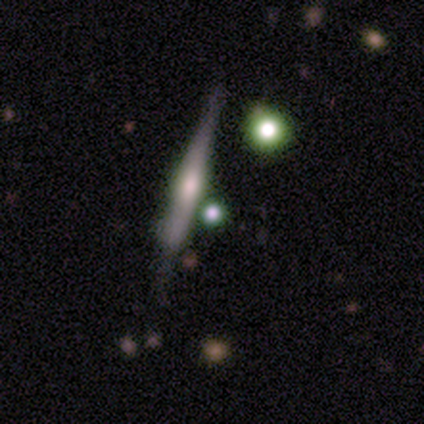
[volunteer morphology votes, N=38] Overall: featured or disk (53%; smooth 32%). Edge-on disk: yes (100%). Edge-on bulge: rounded (50%; boxy 30%). Merging: none (50%; minor disturbance 31%).